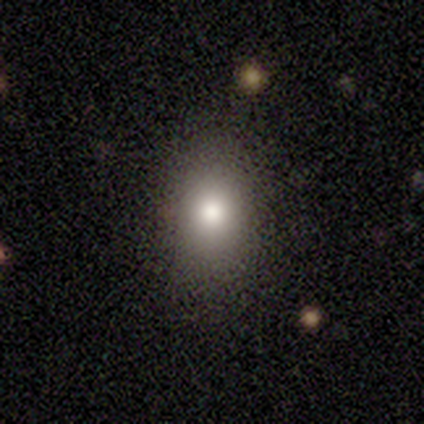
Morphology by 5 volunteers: Smooth or featured: smooth — 80% (star or artifact — 20%)
How rounded: round — 50% (tied with in between — 50%)
Merging: none — 100%